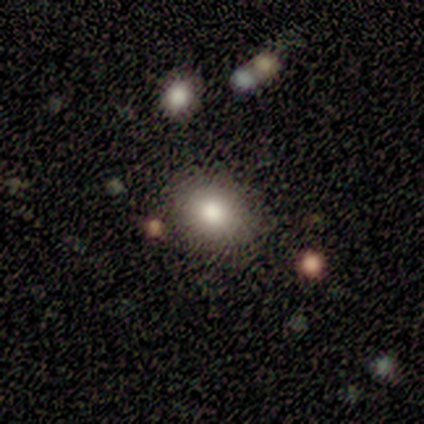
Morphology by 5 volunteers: type=smooth (100%); roundness=round (80%); merging=none (80%).